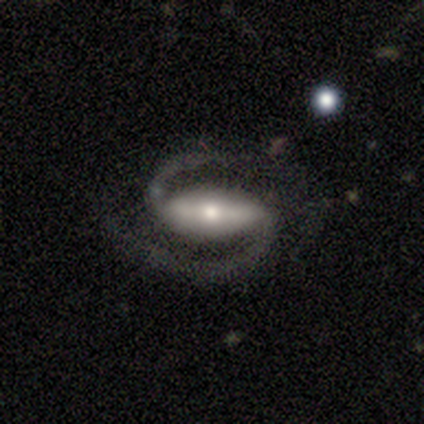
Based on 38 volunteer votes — Q: Smooth or featured?
A: featured or disk (100%)
Q: Edge-on disk?
A: no (100%)
Q: Bar?
A: strong (66%); runner-up: weak (21%)
Q: Spiral arms?
A: yes (100%)
Q: Spiral winding?
A: medium (66%); runner-up: loose (29%)
Q: Spiral arm count?
A: 2 (95%); runner-up: 3 (3%)
Q: Bulge size?
A: moderate (50%); runner-up: small (39%)
Q: Merging?
A: none (82%); runner-up: major disturbance (11%)